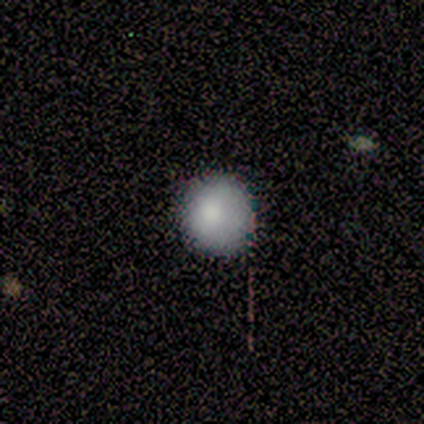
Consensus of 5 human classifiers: Overall: smooth (100%). How rounded: round (100%). Merging: none (80%).